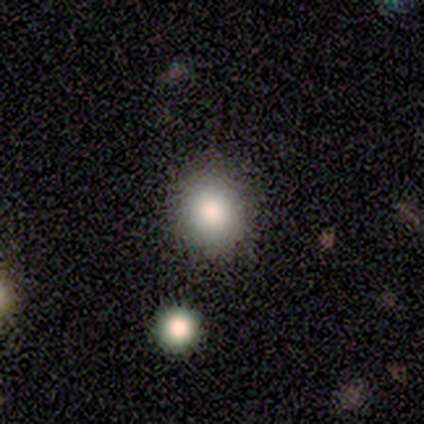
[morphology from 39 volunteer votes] Q: Smooth or featured?
A: smooth (92%); runner-up: featured or disk (5%)
Q: How rounded?
A: round (69%); runner-up: in between (31%)
Q: Merging?
A: none (74%); runner-up: minor disturbance (5%)